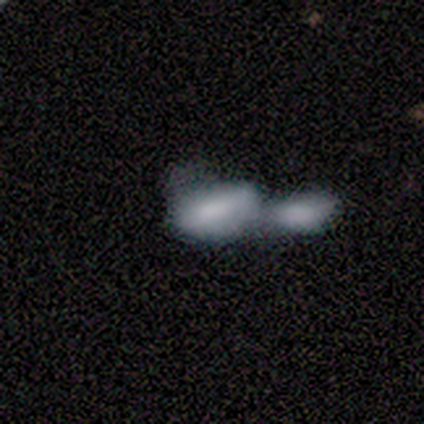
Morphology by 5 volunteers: Q: Smooth or featured?
A: smooth (80%); runner-up: featured or disk (20%)
Q: How rounded?
A: in between (100%)
Q: Merging?
A: merger (80%); runner-up: major disturbance (20%)